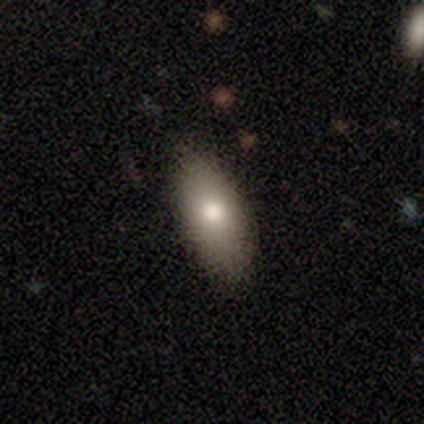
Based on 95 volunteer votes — Volunteers were most divided on "smooth or featured": smooth: 80%, featured or disk: 15%, star or artifact: 5%. More confident: how rounded — in between (88%); merging — none (82%).